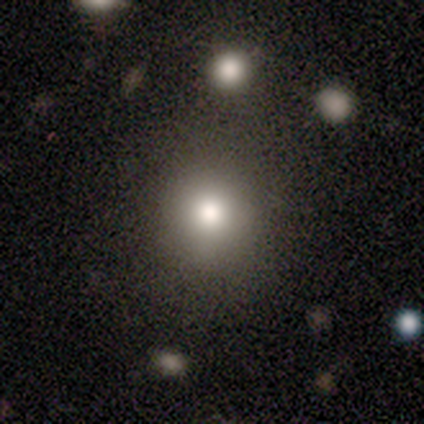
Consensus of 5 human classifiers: Smooth or featured? smooth (80%)
How rounded? round (100%)
Merging? none (100%)